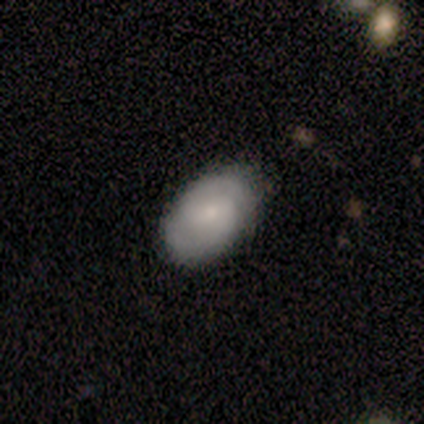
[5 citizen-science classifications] A featured or disk galaxy (80%) with a weak bar (50%), 2 (100%) medium (75%) spiral arms (100%) and a small central bulge (75%).

Vote fractions:
- Smooth or featured? featured or disk: 80% / smooth: 20% / star or artifact: 0%
- Edge-on disk? no: 100% / yes: 0%
- Bar? weak: 50% / strong: 25% / no: 25%
- Spiral arms? yes: 100% / no: 0%
- Spiral winding? medium: 75% / tight: 25% / loose: 0%
- Spiral arm count? 2: 100% / 1: 0% / 3: 0% / 4: 0% / more than 4: 0% / can't tell: 0%
- Bulge size? small: 75% / moderate: 25% / dominant: 0% / large: 0% / none: 0%
- Merging? none: 80% / minor disturbance: 20% / major disturbance: 0% / merger: 0%